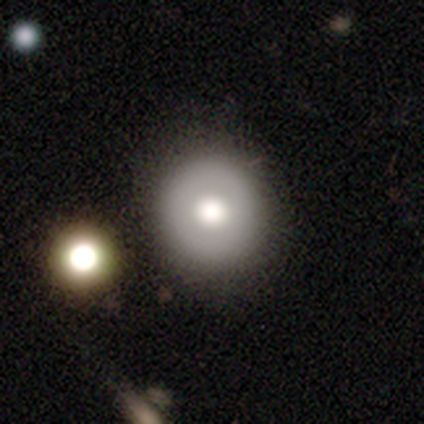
Q: Smooth or featured?
A: featured or disk (60%); runner-up: smooth (40%)
Q: Edge-on disk?
A: no (100%)
Q: Bar?
A: no (100%)
Q: Spiral arms?
A: no (100%)
Q: Bulge size?
A: large (67%); runner-up: moderate (33%)
Q: Merging?
A: none (100%)